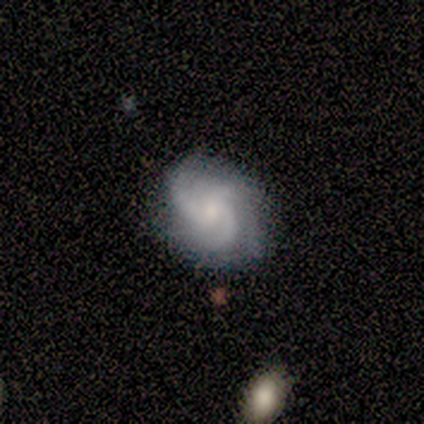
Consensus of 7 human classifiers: Q: Smooth or featured?
A: featured or disk (71%); runner-up: smooth (29%)
Q: Edge-on disk?
A: no (100%)
Q: Bar?
A: no (80%); runner-up: weak (20%)
Q: Spiral arms?
A: yes (100%)
Q: Spiral winding?
A: tight (40%); tied with: medium (40%)
Q: Spiral arm count?
A: 3 (80%); runner-up: 4 (20%)
Q: Bulge size?
A: small (80%); runner-up: moderate (20%)
Q: Merging?
A: none (100%)